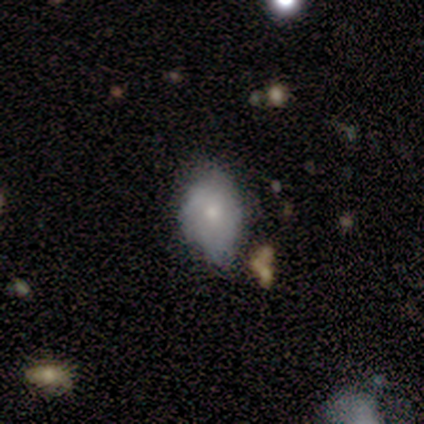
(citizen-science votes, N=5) Smooth or featured?
  - smooth: 40% * (tied)
  - star or artifact: 40% * (tied)
  - featured or disk: 20%
How rounded?
  - in between: 100% *
  - round: 0%
  - cigar-shaped: 0%
Merging?
  - none: 33% * (tied)
  - minor disturbance: 33% * (tied)
  - major disturbance: 33% * (tied)
  - merger: 0%